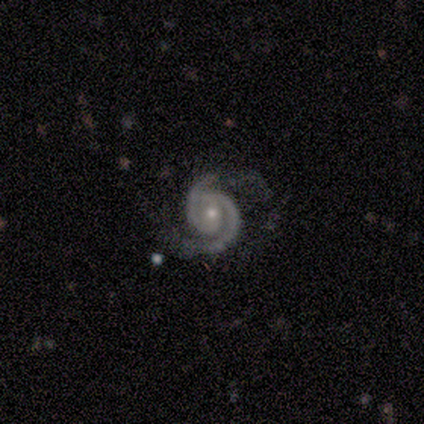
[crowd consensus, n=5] Morphology: type=featured or disk (80%); edge-on=no (100%); bar=weak (50%, tied with no); spiral arms=yes (100%); winding=tight (100%); arm count=2 (100%); bulge=moderate (50%, tied with small); merging=none (100%).